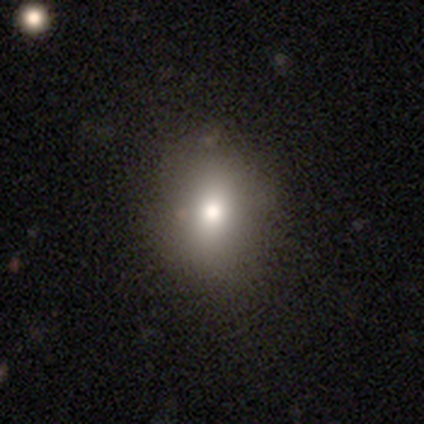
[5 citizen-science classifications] Smooth or featured: smooth — 100%
How rounded: round — 60% (in between — 20%)
Merging: none — 100%